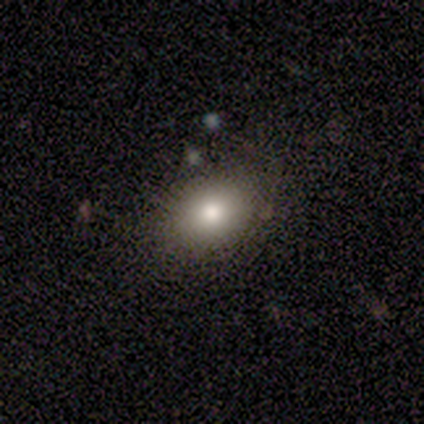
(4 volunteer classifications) smooth-or-featured: smooth: 75% | star or artifact: 25% | featured or disk: 0%
  how-rounded: round: 67% | in between: 33% | cigar-shaped: 0%
  merging: none: 100% | minor disturbance: 0% | major disturbance: 0% | merger: 0%